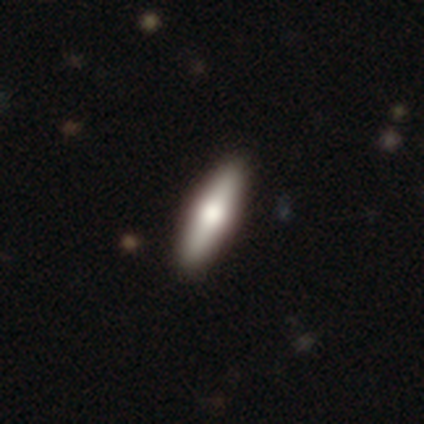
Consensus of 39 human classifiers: Morphology: type=smooth (49%); roundness=cigar-shaped (68%); merging=none (92%).